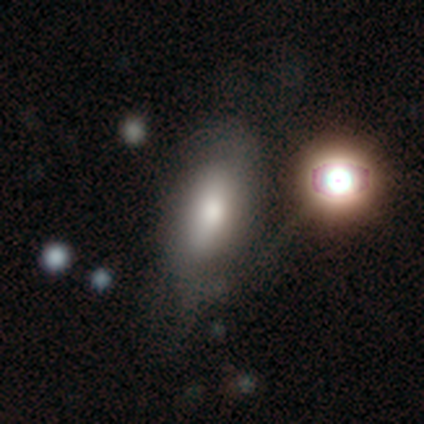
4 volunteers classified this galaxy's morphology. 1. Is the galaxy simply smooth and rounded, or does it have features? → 75% smooth, 25% featured or disk, 0% star or artifact.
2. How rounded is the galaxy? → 100% in between, 0% round, 0% cigar-shaped.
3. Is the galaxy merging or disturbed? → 75% none, 25% minor disturbance, 0% major disturbance, 0% merger.